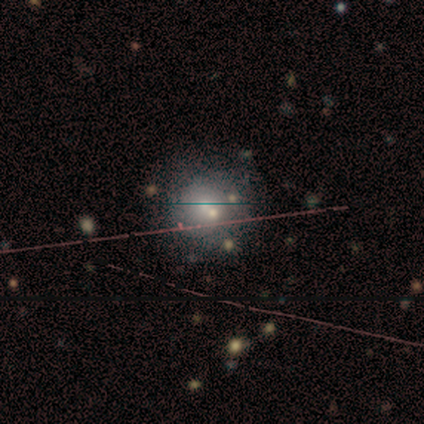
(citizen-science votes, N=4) Smooth or featured?
  - smooth: 75% *
  - star or artifact: 25%
  - featured or disk: 0%
How rounded?
  - round: 100% *
  - in between: 0%
  - cigar-shaped: 0%
Merging?
  - none: 100% *
  - minor disturbance: 0%
  - major disturbance: 0%
  - merger: 0%